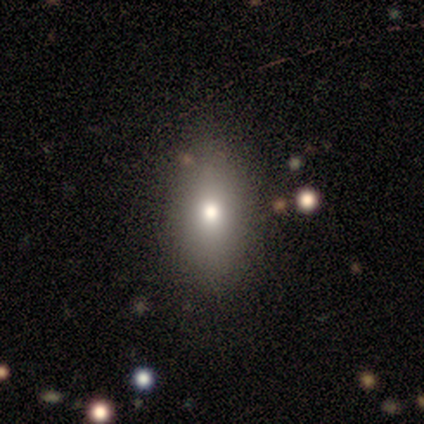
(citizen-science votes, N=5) Morphology: type=smooth (80%); roundness=in between (100%); merging=none (75%).